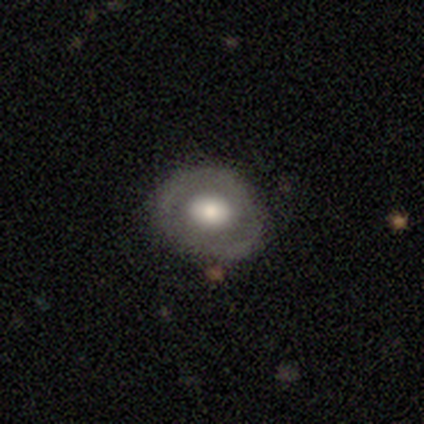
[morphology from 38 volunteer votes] Q: Smooth or featured?
A: smooth (50%); tied with: featured or disk (50%)
Q: How rounded?
A: round (89%); runner-up: in between (11%)
Q: Merging?
A: none (84%); runner-up: minor disturbance (8%)